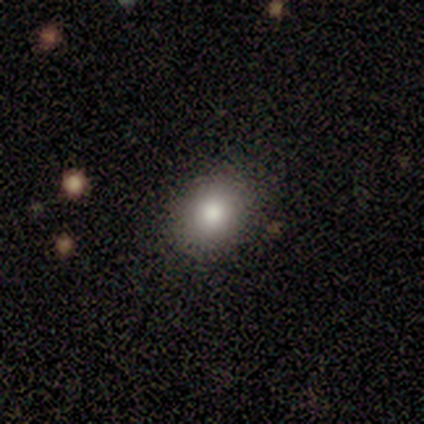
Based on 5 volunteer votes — Smooth or featured? 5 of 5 (100%) said smooth. How rounded? 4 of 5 (80%) said in between. Merging? 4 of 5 (80%) said none.